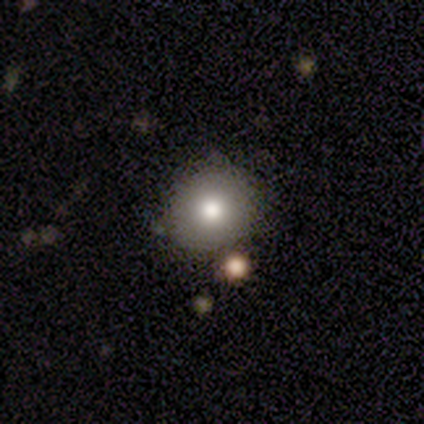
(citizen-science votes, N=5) Smooth or featured: smooth — 60% (star or artifact — 40%)
How rounded: round — 100%
Merging: none — 100%